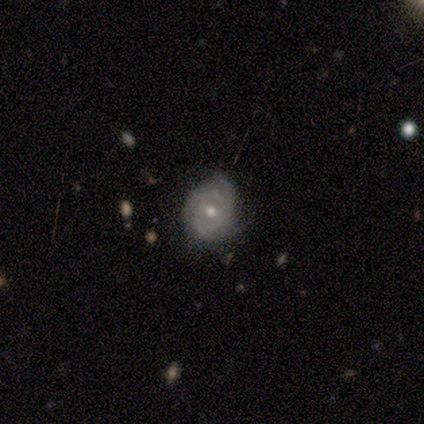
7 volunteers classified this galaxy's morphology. Smooth or featured?
  - featured or disk: 71% *
  - smooth: 29%
  - star or artifact: 0%
Edge-on disk?
  - no: 100% *
  - yes: 0%
Bar?
  - no: 100% *
  - strong: 0%
  - weak: 0%
Spiral arms?
  - yes: 60% *
  - no: 40%
Spiral winding?
  - tight: 100% *
  - medium: 0%
  - loose: 0%
Spiral arm count?
  - 3: 67% *
  - can't tell: 33%
  - 1: 0%
  - 2: 0%
  - 4: 0%
  - more than 4: 0%
Bulge size?
  - moderate: 80% *
  - small: 20%
  - dominant: 0%
  - large: 0%
  - none: 0%
Merging?
  - none: 71% *
  - minor disturbance: 29%
  - major disturbance: 0%
  - merger: 0%